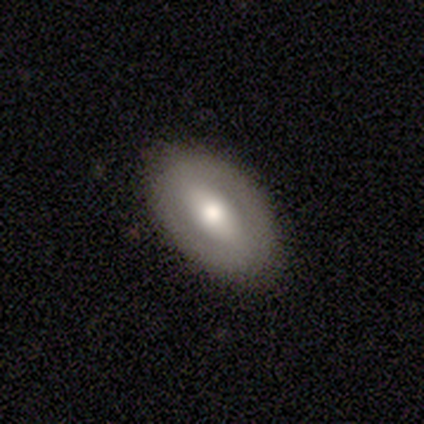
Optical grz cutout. It shows a featured or disk galaxy (47%) with a strong bar (39%), no spiral arms (69%) and a moderate central bulge (61%). Merging: none (80%).